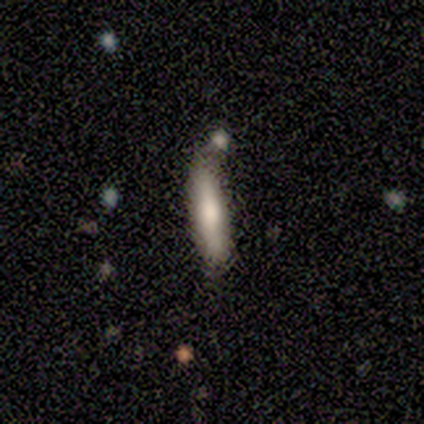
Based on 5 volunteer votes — A smooth galaxy with no disk features (100%) that is cigar-shaped (100%). Merging: none (60%).